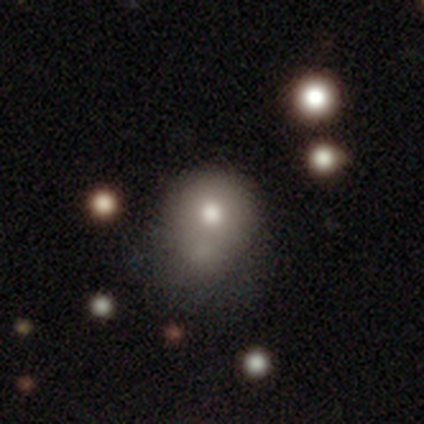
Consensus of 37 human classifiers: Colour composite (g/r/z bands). It shows a smooth galaxy with no disk features (65%) that is round (54%). Merging: merger (27%).